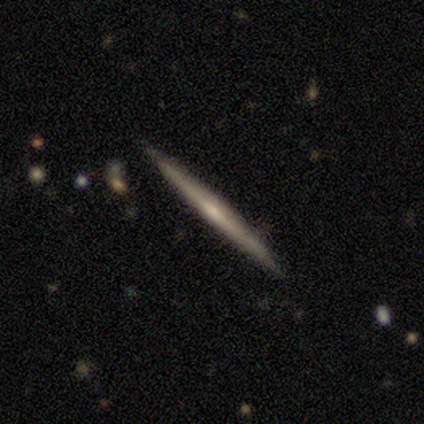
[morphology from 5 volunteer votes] Volunteers were most divided on "edge-on bulge": none: 50%, boxy: 25%, rounded: 25%. More confident: edge-on disk — yes (100%); smooth or featured — featured or disk (80%); merging — none (75%).